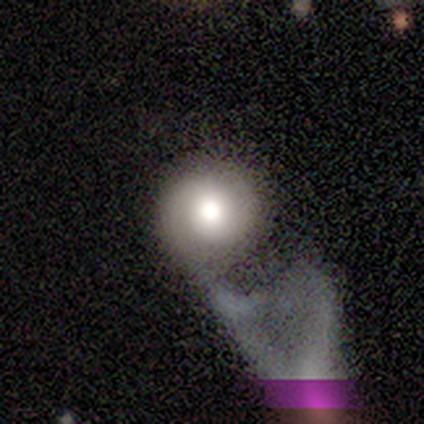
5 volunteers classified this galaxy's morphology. smooth 60%, featured or disk 40%, star or artifact 0%. Down the decision tree: how rounded — round (100%); merging — major disturbance (40%).